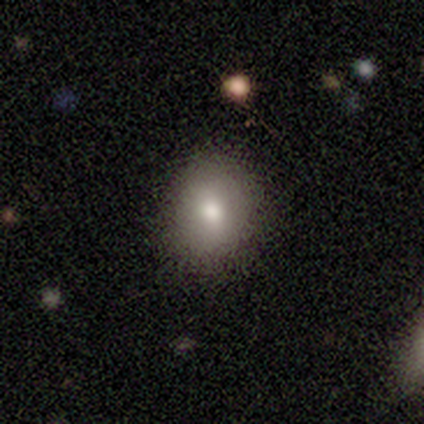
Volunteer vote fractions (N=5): Q: Smooth or featured?
A: smooth (60%); runner-up: featured or disk (20%)
Q: How rounded?
A: round (100%)
Q: Merging?
A: none (100%)